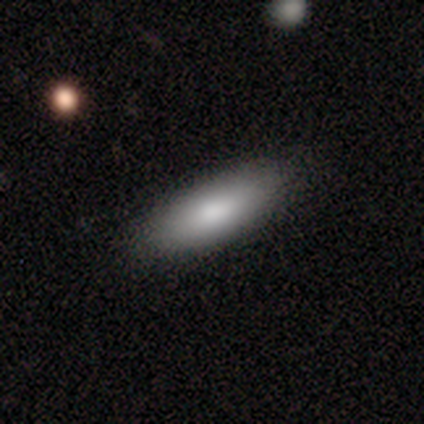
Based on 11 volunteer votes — A smooth galaxy with no disk features (91%) that is in between round and cigar-shaped (80%). Merging: none (91%).